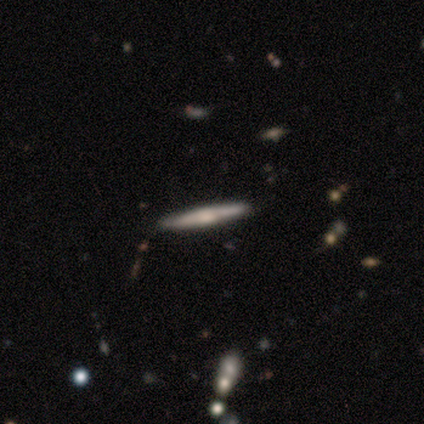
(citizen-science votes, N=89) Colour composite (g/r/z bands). It shows a featured or disk galaxy (63%) viewed edge-on (95%) with a rounded central bulge (75%). Merging: none (89%).